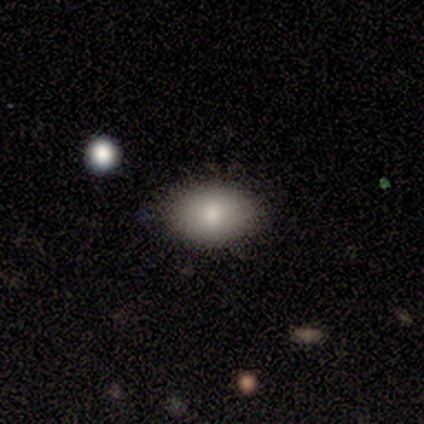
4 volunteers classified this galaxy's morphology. Overall: smooth (50%; featured or disk 25%). How rounded: in between (100%). Merging: none (100%).